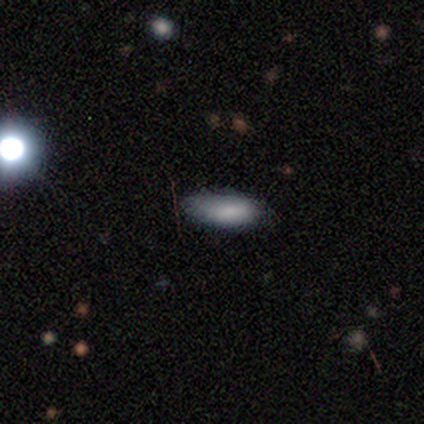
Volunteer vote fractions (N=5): This is clearly a smooth galaxy (100%). How rounded: clearly in between (80%). Merging: clearly none (80%).